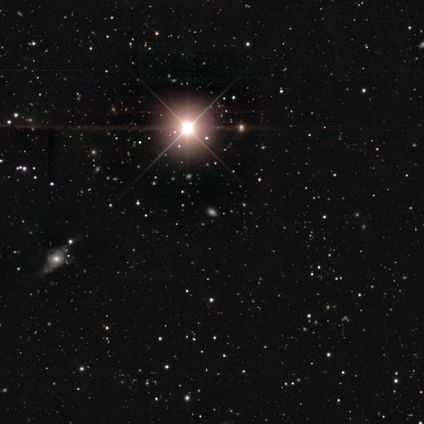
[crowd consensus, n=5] Smooth or featured? 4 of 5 (80%) said star or artifact.